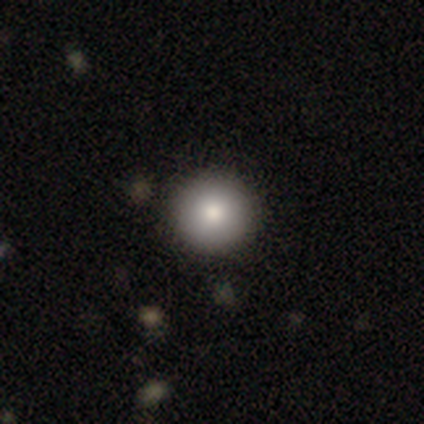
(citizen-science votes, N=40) Smooth or featured? smooth (80%)
How rounded? round (97%)
Merging? none (91%)